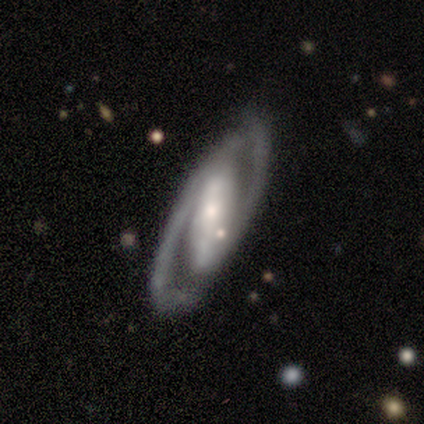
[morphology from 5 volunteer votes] Smooth or featured?
  - featured or disk: 80% *
  - star or artifact: 20%
  - smooth: 0%
Edge-on disk?
  - no: 100% *
  - yes: 0%
Bar?
  - strong: 75% *
  - weak: 25%
  - no: 0%
Spiral arms?
  - yes: 100% *
  - no: 0%
Spiral winding?
  - loose: 50% *
  - tight: 25%
  - medium: 25%
Spiral arm count?
  - 2: 75% *
  - 1: 25%
  - 3: 0%
  - 4: 0%
  - more than 4: 0%
  - can't tell: 0%
Bulge size?
  - small: 50% *
  - moderate: 25%
  - none: 25%
  - dominant: 0%
  - large: 0%
Merging?
  - none: 75% *
  - major disturbance: 25%
  - minor disturbance: 0%
  - merger: 0%